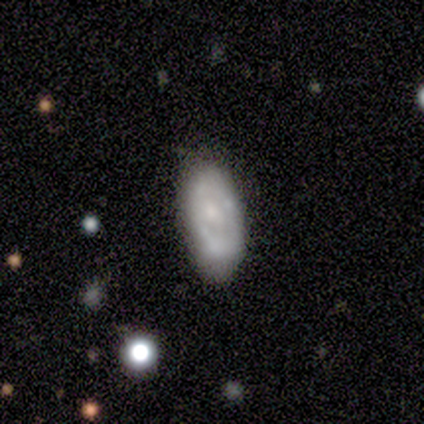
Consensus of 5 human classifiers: Morphology: type=smooth (60%); roundness=in between (100%); merging=none (80%).